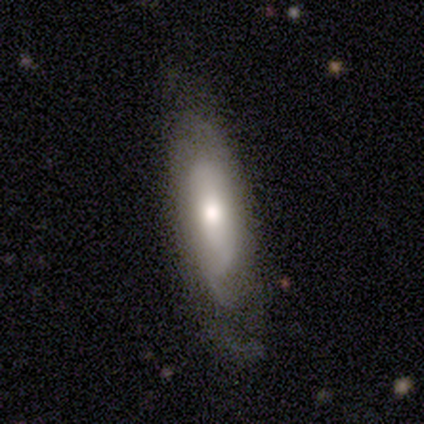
Q: Smooth or featured?
A: featured or disk (61%); runner-up: smooth (32%)
Q: Edge-on disk?
A: no (74%); runner-up: yes (26%)
Q: Bar?
A: no (65%); runner-up: strong (18%)
Q: Spiral arms?
A: no (59%); runner-up: yes (41%)
Q: Bulge size?
A: moderate (59%); runner-up: large (24%)
Q: Merging?
A: none (51%); runner-up: minor disturbance (31%)